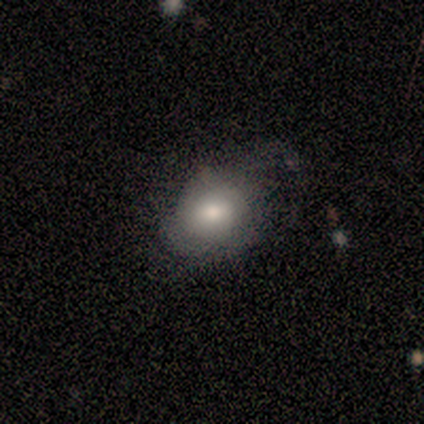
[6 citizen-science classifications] smooth 33% (tied), featured or disk 33% (tied), star or artifact 33% (tied). Down the decision tree: how rounded — round (50%, tied with in between); merging — minor disturbance (50%).